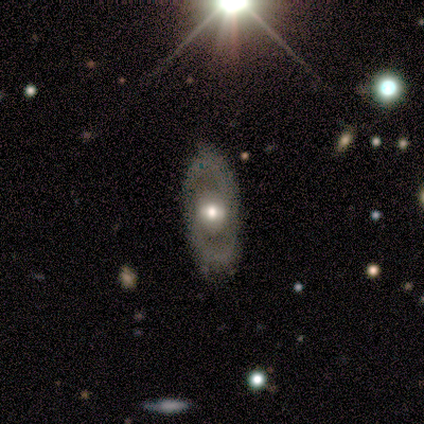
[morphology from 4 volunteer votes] Smooth or featured: smooth — 75% (featured or disk — 25%)
How rounded: in between — 100%
Merging: none — 100%